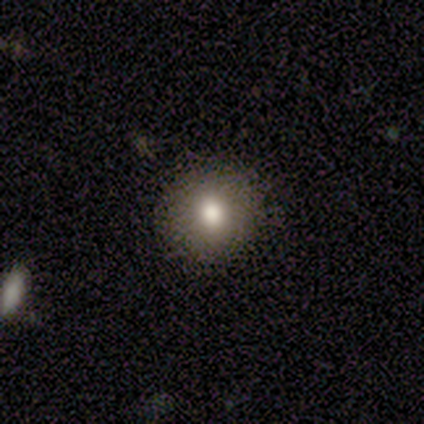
smooth-or-featured: smooth: 80% | star or artifact: 20% | featured or disk: 0%
  how-rounded: round: 100% | in between: 0% | cigar-shaped: 0%
  merging: none: 100% | minor disturbance: 0% | major disturbance: 0% | merger: 0%